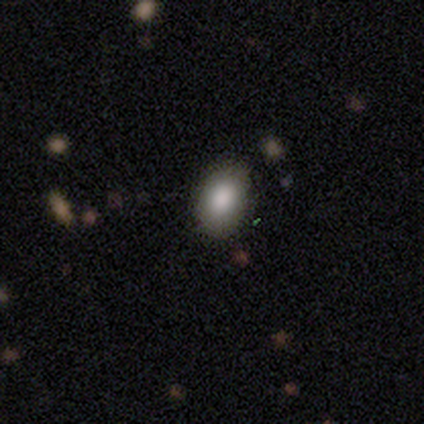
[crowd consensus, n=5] This appears to be a smooth galaxy with no disk features (60%) that is in between round and cigar-shaped (100%). Merging: none (50%).